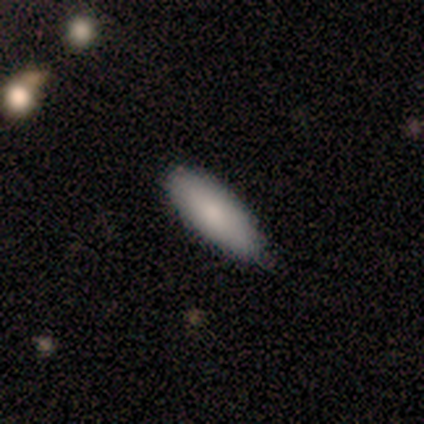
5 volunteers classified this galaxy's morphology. Smooth or featured: smooth — 80% (featured or disk — 20%)
How rounded: in between — 75% (cigar-shaped — 25%)
Merging: none — 60% (minor disturbance — 40%)